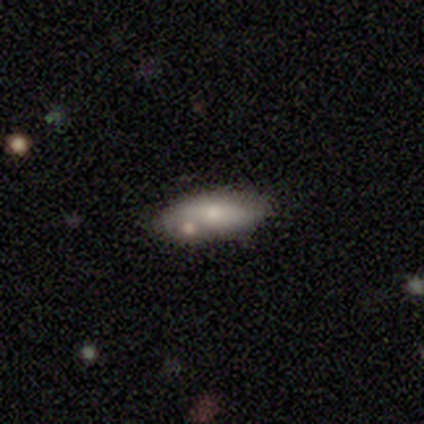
Volunteers were most divided on "merging": none: 60%, minor disturbance: 20%, merger: 20%, major disturbance: 0%. More confident: smooth or featured — smooth (100%); how rounded — in between (100%).